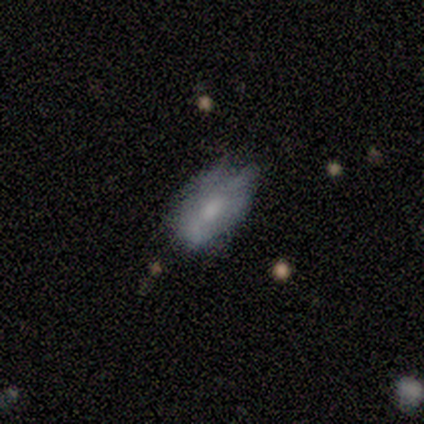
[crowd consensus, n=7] smooth 86%, featured or disk 14%, star or artifact 0%. Down the decision tree: how rounded — in between (100%); merging — minor disturbance (71%).